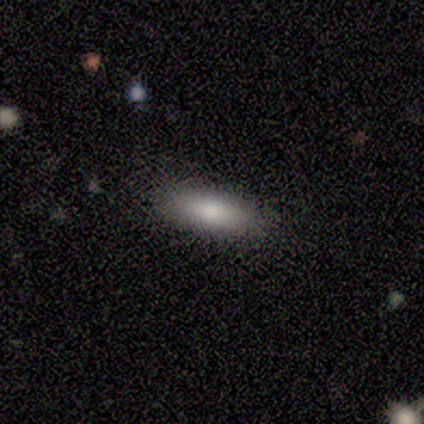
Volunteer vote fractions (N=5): smooth-or-featured: smooth: 80% | star or artifact: 20% | featured or disk: 0%
  how-rounded: cigar-shaped: 75% | in between: 25% | round: 0%
  merging: none: 100% | minor disturbance: 0% | major disturbance: 0% | merger: 0%